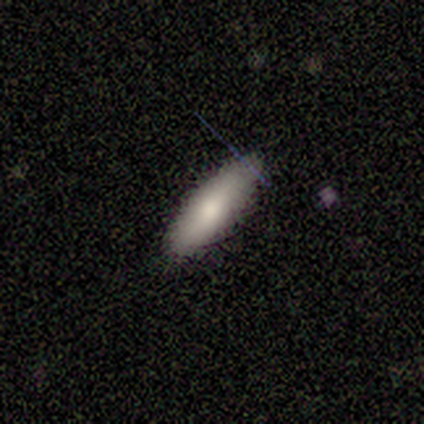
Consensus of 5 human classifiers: Overall: smooth (100%). How rounded: in between (80%). Merging: none (100%).